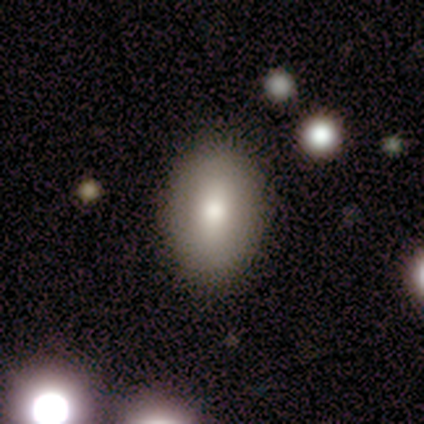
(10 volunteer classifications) Volunteers were most divided on "merging": none: 70%, major disturbance: 20%, minor disturbance: 10%, merger: 0%. More confident: smooth or featured — smooth (100%); how rounded — in between (80%).